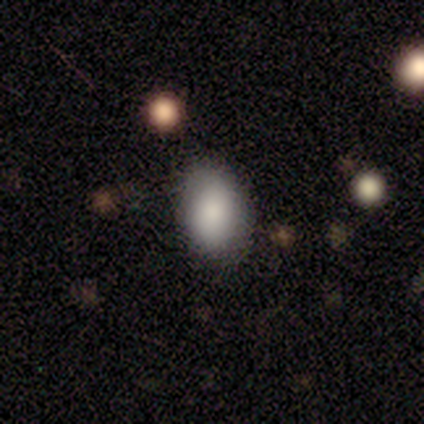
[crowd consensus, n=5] Morphology: type=smooth (100%); roundness=in between (100%); merging=none (100%).